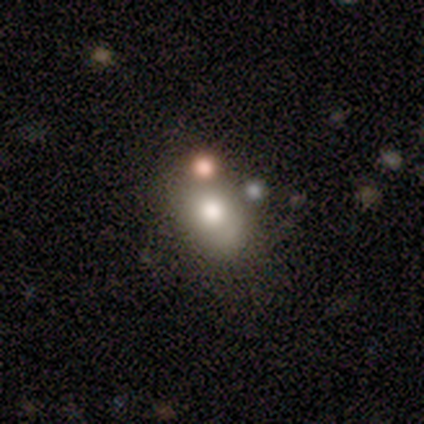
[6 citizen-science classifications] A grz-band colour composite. It shows a smooth galaxy with no disk features (67%) that is round (50%, tied with in between). Merging: none (60%).